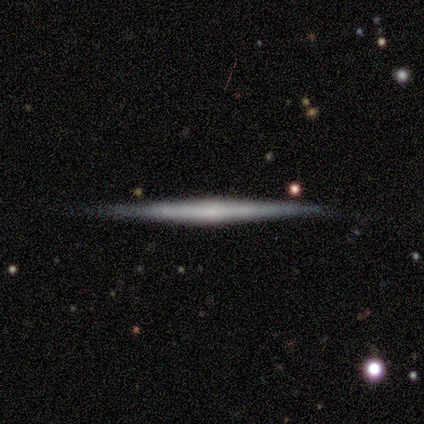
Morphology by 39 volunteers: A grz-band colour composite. It shows a featured or disk galaxy (64%) viewed edge-on (96%) with a rounded central bulge (50%). Merging: none (87%).